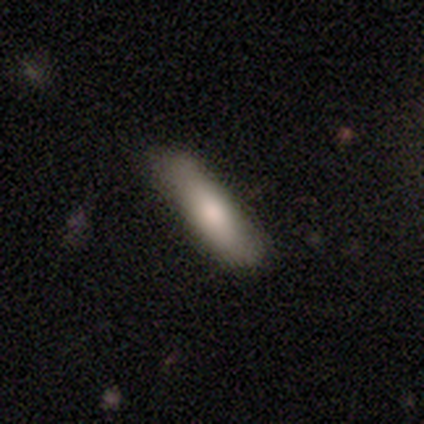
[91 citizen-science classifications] Overall: smooth (78%). How rounded: cigar-shaped (66%; in between 34%). Merging: none (80%).